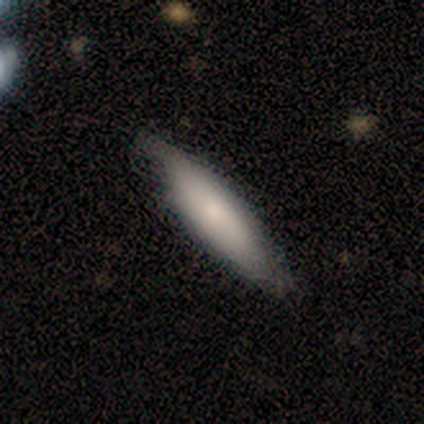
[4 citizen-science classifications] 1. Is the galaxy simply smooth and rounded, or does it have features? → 50% featured or disk, 25% smooth, 25% star or artifact.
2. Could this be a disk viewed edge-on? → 50% yes (tied), 50% no (tied).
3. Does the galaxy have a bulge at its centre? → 100% none, 0% boxy, 0% rounded.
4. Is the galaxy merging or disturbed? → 100% none, 0% minor disturbance, 0% major disturbance, 0% merger.